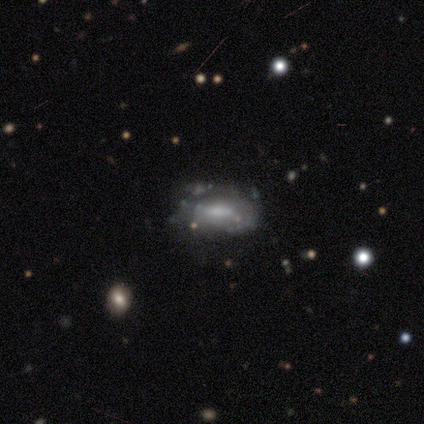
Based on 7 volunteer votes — A featured or disk galaxy (100%) with no bar (86%), no spiral arms (86%) and a moderate central bulge (57%). Merging: none (57%).